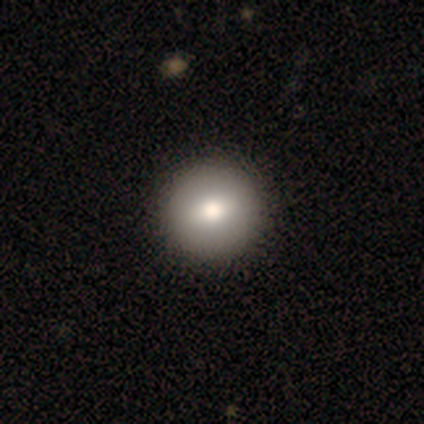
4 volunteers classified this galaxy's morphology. type=smooth (100%); roundness=round (100%); merging=none (100%).